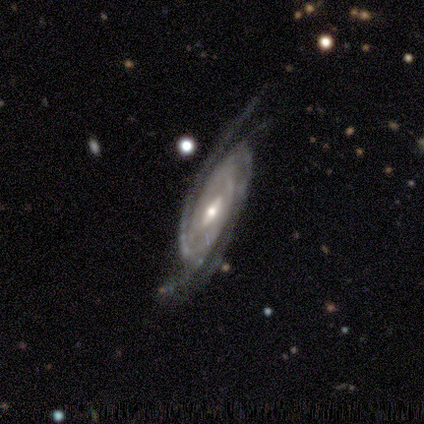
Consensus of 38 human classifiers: Smooth or featured?
  - featured or disk: 97% *
  - smooth: 3%
  - star or artifact: 0%
Edge-on disk?
  - no: 89% *
  - yes: 11%
Bar?
  - weak: 67% *
  - strong: 21%
  - no: 12%
Spiral arms?
  - yes: 100% *
  - no: 0%
Spiral winding?
  - medium: 52% *
  - tight: 48%
  - loose: 0%
Spiral arm count?
  - 2: 30% *
  - 4: 27%
  - 3: 24%
  - can't tell: 15%
  - more than 4: 3%
  - 1: 0%
Bulge size?
  - moderate: 52% *
  - small: 42%
  - large: 3%
  - none: 3%
  - dominant: 0%
Merging?
  - none: 68% *
  - minor disturbance: 21%
  - major disturbance: 11%
  - merger: 0%